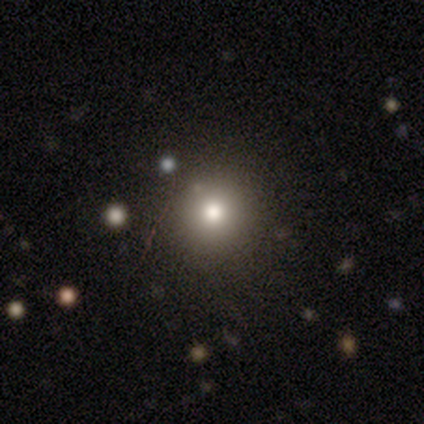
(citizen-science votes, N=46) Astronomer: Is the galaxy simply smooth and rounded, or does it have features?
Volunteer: smooth — 74%.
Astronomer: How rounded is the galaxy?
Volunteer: round — 94%.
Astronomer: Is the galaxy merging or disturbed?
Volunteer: none — 91%.